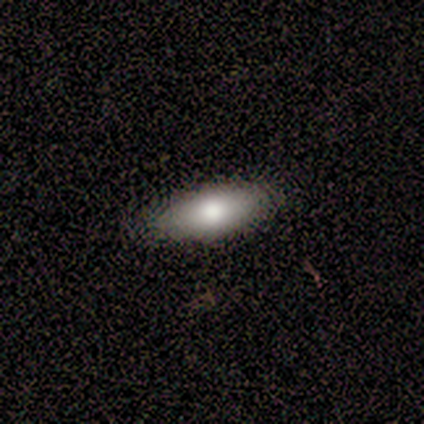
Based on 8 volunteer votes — This appears to be a smooth galaxy with no disk features (88%) that is in between round and cigar-shaped (86%). Merging: none (75%).